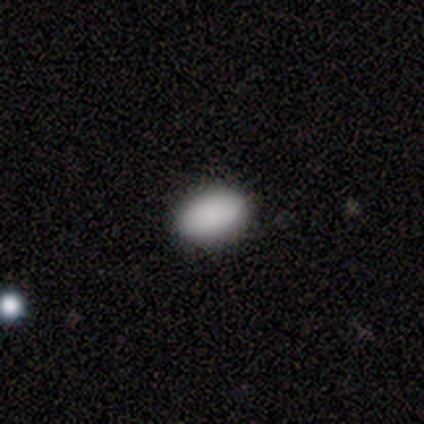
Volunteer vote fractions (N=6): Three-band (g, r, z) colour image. It shows a smooth galaxy with no disk features (100%) that is in between round and cigar-shaped (100%). Merging: none (100%).